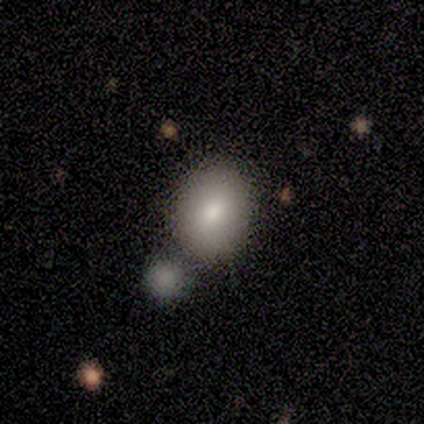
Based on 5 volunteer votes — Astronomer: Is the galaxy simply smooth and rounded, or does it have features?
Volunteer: smooth — 80%.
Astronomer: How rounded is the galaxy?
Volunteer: round — 50%, tied with in between at 50%.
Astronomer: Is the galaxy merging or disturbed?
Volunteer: none — 60% (runner-up: merger, 40%).